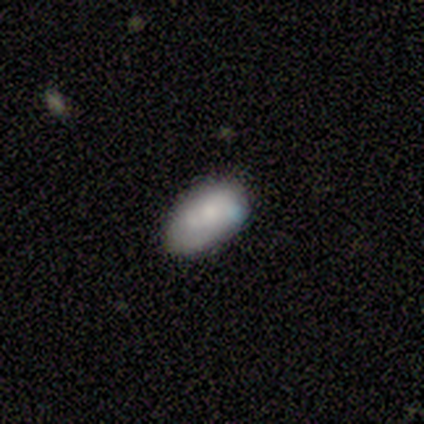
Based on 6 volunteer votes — smooth_or_featured: smooth (p=0.83) [alt: featured or disk p=0.17]
how_rounded: in between (p=1.00)
merging: none (p=0.50) [alt: merger p=0.33]